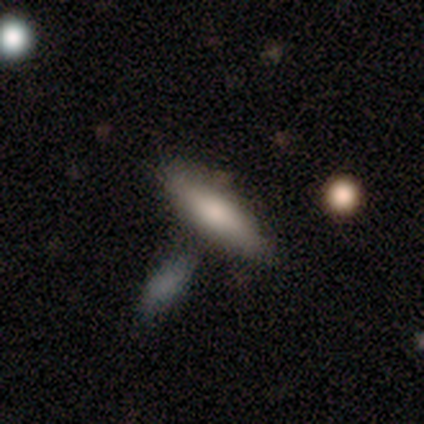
A smooth galaxy with no disk features (50%, tied with star or artifact) that is cigar-shaped (100%).

Vote fractions:
- Smooth or featured? smooth: 50% (tied) / star or artifact: 50% (tied) / featured or disk: 0%
- How rounded? cigar-shaped: 100% / round: 0% / in between: 0%
- Merging? none: 50% (tied) / merger: 50% (tied) / minor disturbance: 0% / major disturbance: 0%